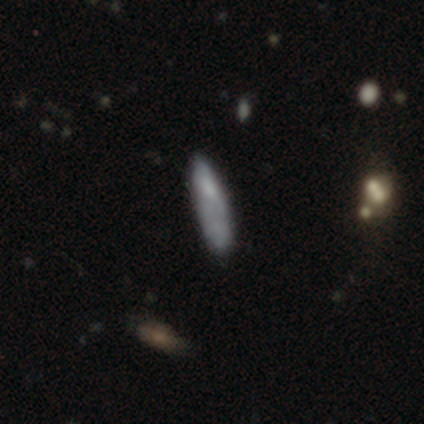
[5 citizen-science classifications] smooth-or-featured: smooth: 80% | featured or disk: 20% | star or artifact: 0%
  how-rounded: cigar-shaped: 75% | in between: 25% | round: 0%
  merging: none: 80% | minor disturbance: 20% | major disturbance: 0% | merger: 0%